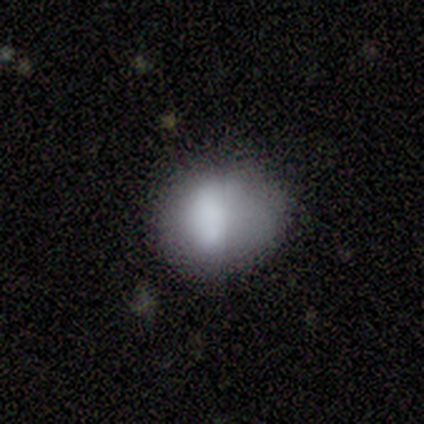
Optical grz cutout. It shows a smooth galaxy with no disk features (100%) that is round (60%). Merging: none (80%).